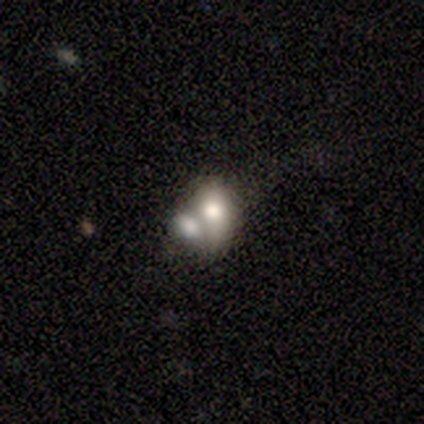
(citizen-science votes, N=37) A smooth galaxy with no disk features (70%) that is in between round and cigar-shaped (77%).

Vote fractions:
- Smooth or featured? smooth: 70% / featured or disk: 22% / star or artifact: 8%
- How rounded? in between: 77% / round: 19% / cigar-shaped: 4%
- Merging? merger: 68% / none: 21% / minor disturbance: 9% / major disturbance: 3%